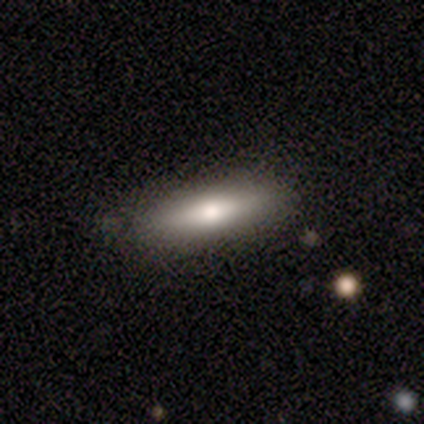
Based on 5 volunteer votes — Volunteers were most divided on "smooth or featured": smooth: 60%, featured or disk: 40%, star or artifact: 0%. More confident: merging — none (80%); how rounded — cigar-shaped (67%).